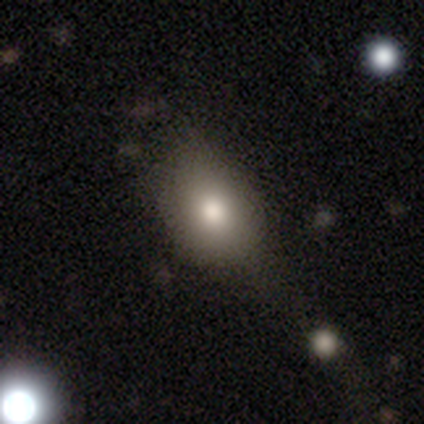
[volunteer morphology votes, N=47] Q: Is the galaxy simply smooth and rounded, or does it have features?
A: smooth — 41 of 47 (87%).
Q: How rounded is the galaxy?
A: in between — 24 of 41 (59%).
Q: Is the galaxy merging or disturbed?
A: none — 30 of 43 (70%).